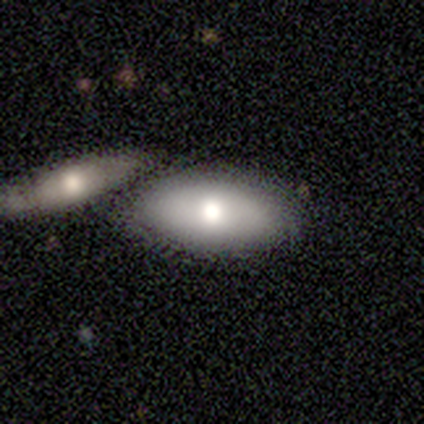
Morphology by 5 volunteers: Volunteers were most divided on "merging": none: 60%, merger: 40%, minor disturbance: 0%, major disturbance: 0%. More confident: smooth or featured — smooth (80%); how rounded — in between (75%).